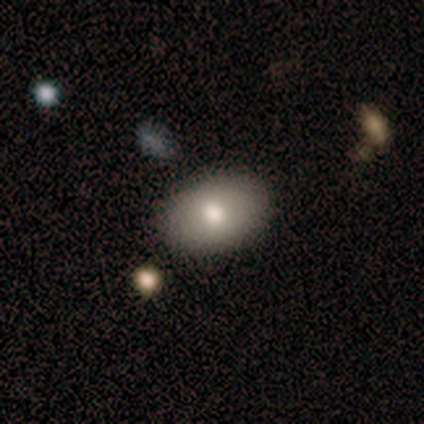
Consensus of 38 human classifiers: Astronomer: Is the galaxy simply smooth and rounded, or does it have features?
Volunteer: smooth — 71%.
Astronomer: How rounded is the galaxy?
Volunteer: in between — 96%.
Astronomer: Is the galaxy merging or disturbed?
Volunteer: none — 91%.